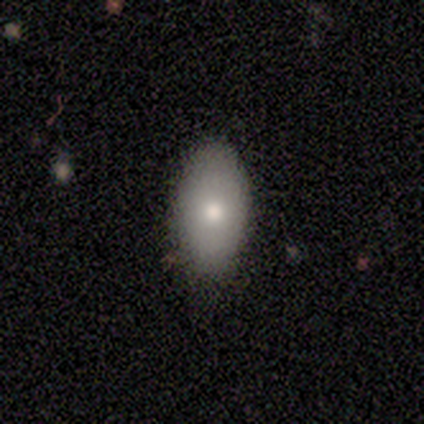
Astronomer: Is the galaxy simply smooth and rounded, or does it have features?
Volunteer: smooth — 90%.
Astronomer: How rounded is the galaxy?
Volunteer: in between — 89%.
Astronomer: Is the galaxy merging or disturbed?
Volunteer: none — 100%.